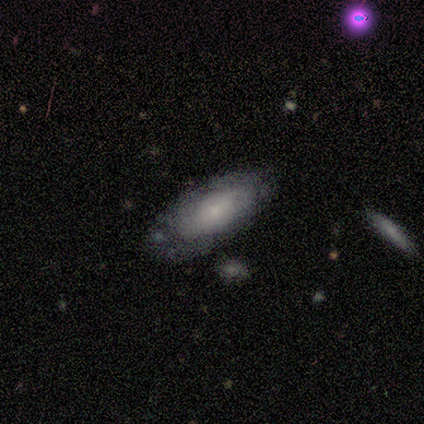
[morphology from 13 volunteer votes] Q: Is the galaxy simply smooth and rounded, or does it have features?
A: featured or disk — 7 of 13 (54%).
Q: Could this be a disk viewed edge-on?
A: yes — 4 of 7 (57%).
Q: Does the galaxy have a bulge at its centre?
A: rounded — 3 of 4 (75%).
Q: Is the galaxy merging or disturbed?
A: none — 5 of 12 (42%).